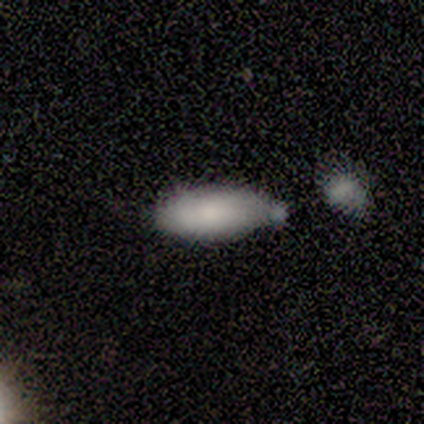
This appears to be a smooth galaxy with no disk features (40%, tied with featured or disk) that is in between round and cigar-shaped (50%, tied with cigar-shaped). Merging: minor disturbance (50%).